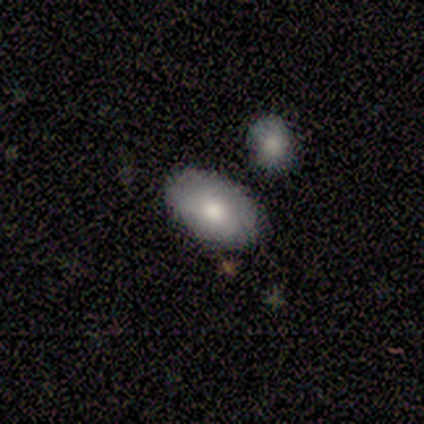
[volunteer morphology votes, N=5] Volunteers were most divided on "smooth or featured": smooth: 80%, featured or disk: 20%, star or artifact: 0%. More confident: how rounded — in between (100%); merging — none (100%).